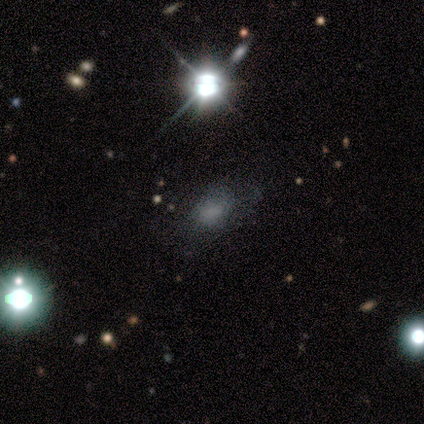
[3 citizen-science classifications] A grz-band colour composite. It shows a smooth galaxy with no disk features (33%, tied with featured or disk and star or artifact) that is in between round and cigar-shaped (100%). Merging: none (50%, tied with major disturbance).